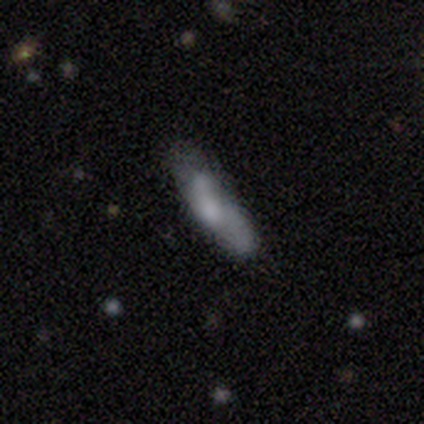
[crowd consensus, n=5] Smooth or featured? 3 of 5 (60%) said smooth. How rounded? 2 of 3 (67%) said in between. Merging? 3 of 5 (60%) said minor disturbance.